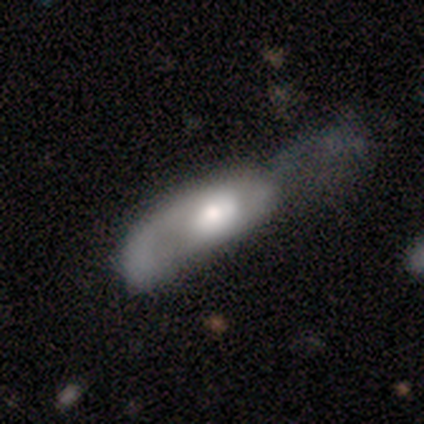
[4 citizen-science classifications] smooth-or-featured: smooth: 50% (tied) | featured or disk: 50% (tied) | star or artifact: 0%
  how-rounded: in between: 100% | round: 0% | cigar-shaped: 0%
  merging: major disturbance: 75% | none: 25% | minor disturbance: 0% | merger: 0%